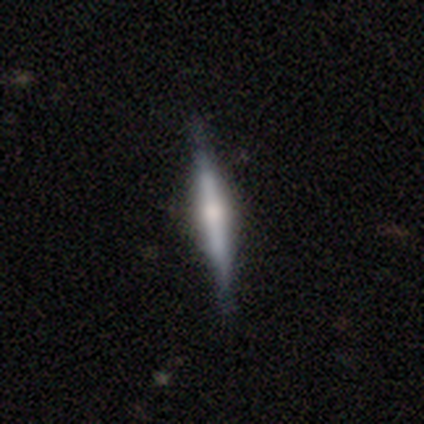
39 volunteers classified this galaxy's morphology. A featured or disk galaxy (62%) viewed edge-on (100%) with a rounded central bulge (71%). Merging: none (84%).